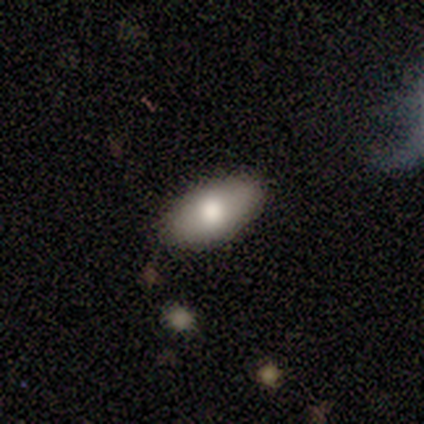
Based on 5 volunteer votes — Smooth or featured: featured or disk — 60% (smooth — 40%)
Edge-on disk: no — 100%
Bar: no — 100%
Spiral arms: no — 100%
Bulge size: large — 67% (moderate — 33%)
Merging: none — 60% (minor disturbance — 40%)